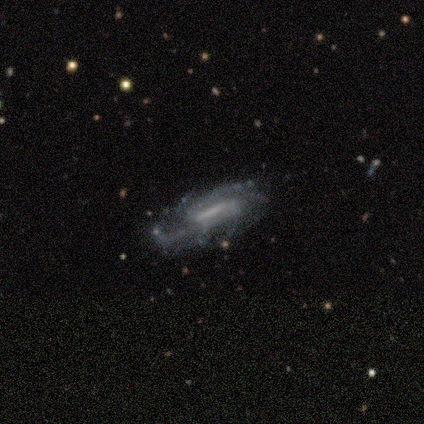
A featured or disk galaxy (81%) with a strong bar (73%), medium (46%) spiral arms (93%) and no central bulge (47%). Merging: none (45%).